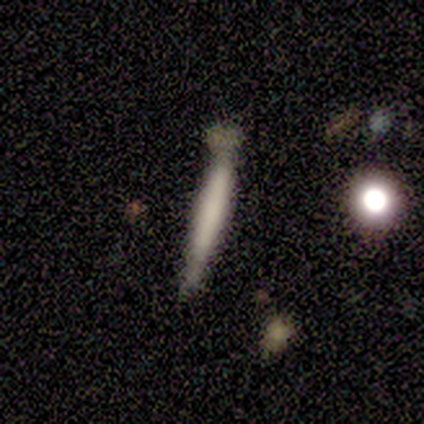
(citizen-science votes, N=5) A smooth galaxy with no disk features (100%) that is cigar-shaped (100%).

Vote fractions:
- Smooth or featured? smooth: 100% / featured or disk: 0% / star or artifact: 0%
- How rounded? cigar-shaped: 100% / round: 0% / in between: 0%
- Merging? none: 60% / minor disturbance: 20% / merger: 20% / major disturbance: 0%